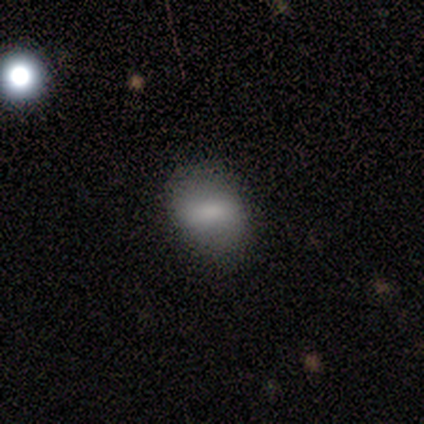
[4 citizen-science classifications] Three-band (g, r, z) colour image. It shows a smooth galaxy with no disk features (75%) that is in between round and cigar-shaped (100%). Merging: none (75%).